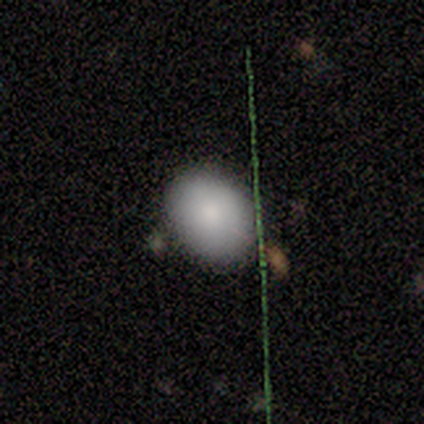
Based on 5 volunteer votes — This appears to be a smooth galaxy with no disk features (80%) that is round (50%, tied with in between). Merging: none (100%).